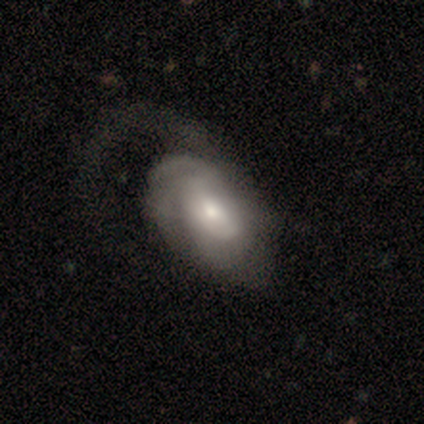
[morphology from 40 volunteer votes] Overall: featured or disk (62%; smooth 30%). Edge-on disk: no (100%). Bar: no (56%; weak 40%). Spiral arms: yes (92%). Spiral arm count: can't tell (48%; 1 17%). Spiral winding: tight (48%; medium 39%). Bulge size: moderate (56%; small 40%). Merging: major disturbance (59%).